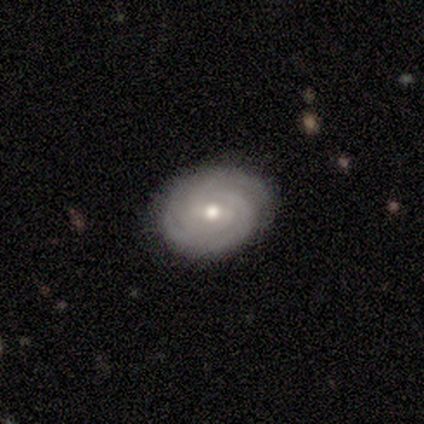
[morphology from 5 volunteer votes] Smooth or featured: smooth — 60% (featured or disk — 40%)
How rounded: round — 100%
Merging: none — 100%